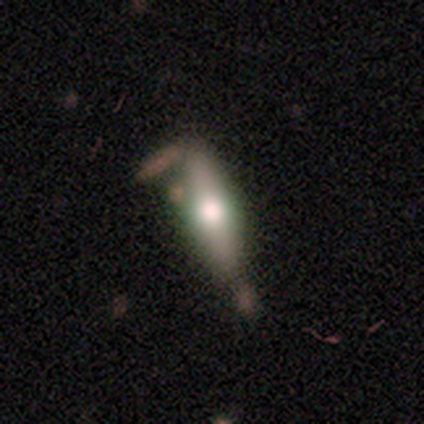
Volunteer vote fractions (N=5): A smooth galaxy with no disk features (60%) that is cigar-shaped (100%).

Vote fractions:
- Smooth or featured? smooth: 60% / featured or disk: 40% / star or artifact: 0%
- How rounded? cigar-shaped: 100% / round: 0% / in between: 0%
- Merging? minor disturbance: 40% (tied) / merger: 40% (tied) / none: 20% / major disturbance: 0%